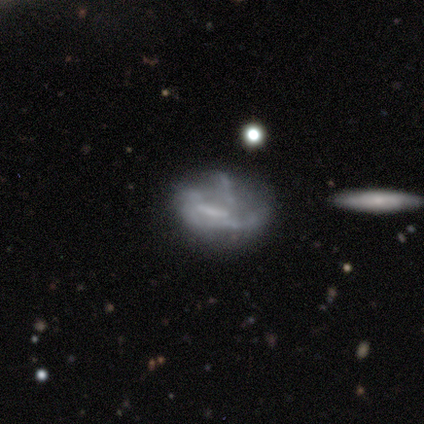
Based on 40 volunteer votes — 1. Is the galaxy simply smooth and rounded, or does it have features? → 80% featured or disk, 10% smooth, 10% star or artifact.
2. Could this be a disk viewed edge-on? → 100% no, 0% yes.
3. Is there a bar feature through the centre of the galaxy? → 62% no, 22% weak, 16% strong.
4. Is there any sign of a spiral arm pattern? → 66% no, 34% yes.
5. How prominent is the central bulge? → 56% none, 19% small, 16% large, 6% moderate, 3% dominant.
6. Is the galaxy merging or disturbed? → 53% none, 25% minor disturbance, 17% major disturbance, 6% merger.